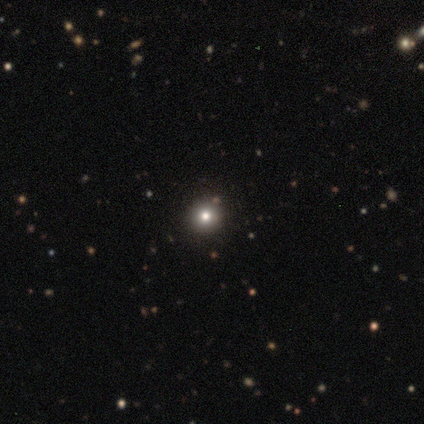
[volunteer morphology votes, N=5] A smooth galaxy with no disk features (60%) that is round (100%).

Vote fractions:
- Smooth or featured? smooth: 60% / star or artifact: 40% / featured or disk: 0%
- How rounded? round: 100% / in between: 0% / cigar-shaped: 0%
- Merging? none: 100% / minor disturbance: 0% / major disturbance: 0% / merger: 0%